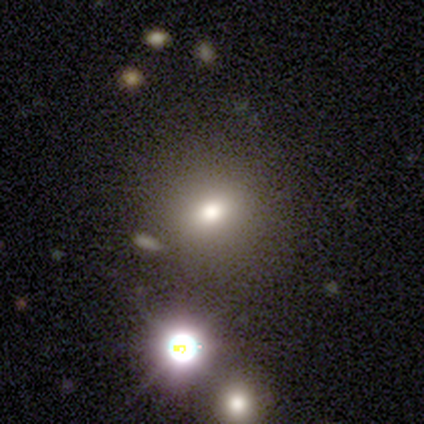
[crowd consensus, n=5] Volunteers were most divided on "smooth or featured": smooth: 80%, star or artifact: 20%, featured or disk: 0%. More confident: how rounded — round (100%); merging — none (100%).